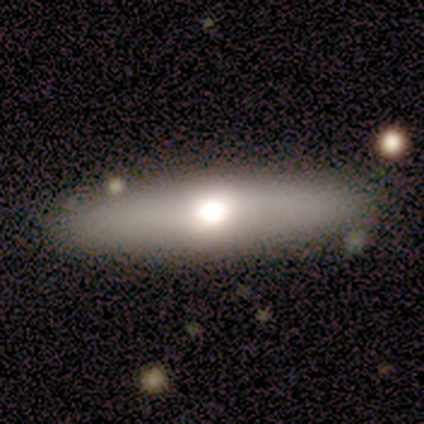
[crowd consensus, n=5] This appears to be a smooth galaxy with no disk features (80%) that is in between round and cigar-shaped (50%, tied with cigar-shaped). Merging: none (80%).